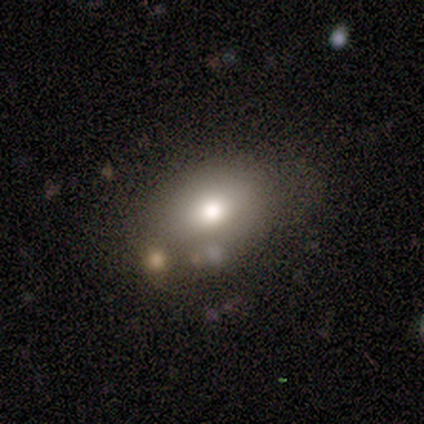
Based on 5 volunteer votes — A smooth galaxy with no disk features (60%) that is in between round and cigar-shaped (100%). Merging: none (60%).